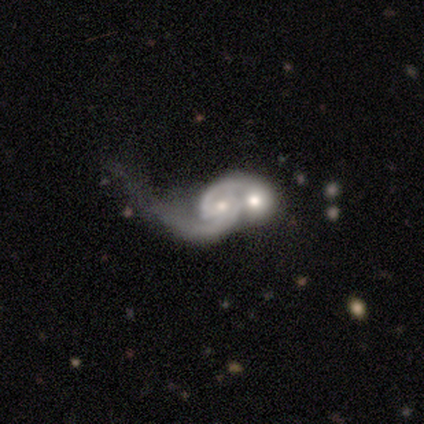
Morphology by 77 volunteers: Smooth or featured? 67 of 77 (87%) said featured or disk. Edge-on disk? 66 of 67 (99%) said no. Bar? 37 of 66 (56%) said no. Spiral arms? 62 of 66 (94%) said yes. Spiral winding? 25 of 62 (40%) said medium. Spiral arm count? 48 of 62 (77%) said 2. Bulge size? 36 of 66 (55%) said moderate. Merging? 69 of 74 (93%) said merger.